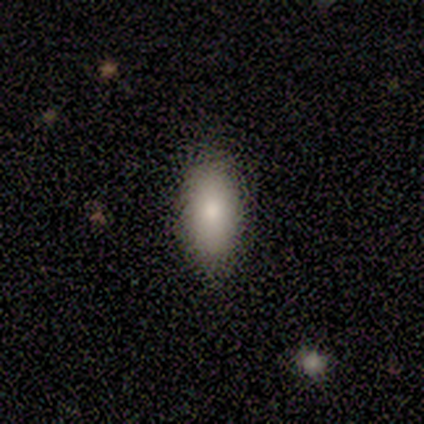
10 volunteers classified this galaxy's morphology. Smooth or featured?
  - smooth: 90% *
  - star or artifact: 10%
  - featured or disk: 0%
How rounded?
  - in between: 100% *
  - round: 0%
  - cigar-shaped: 0%
Merging?
  - none: 67% *
  - minor disturbance: 33%
  - major disturbance: 0%
  - merger: 0%